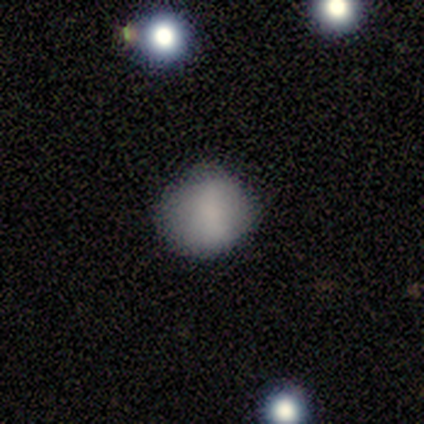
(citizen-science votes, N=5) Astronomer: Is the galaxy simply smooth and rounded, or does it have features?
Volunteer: smooth — 80%.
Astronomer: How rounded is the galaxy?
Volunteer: round — 100%.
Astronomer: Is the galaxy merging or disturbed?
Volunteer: none — 100%.